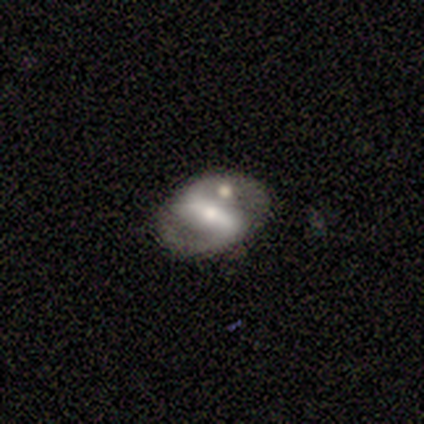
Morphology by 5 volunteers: smooth_or_featured: featured or disk (p=0.60) [alt: smooth p=0.40]
disk_edge_on: no (p=1.00)
bar: strong (p=0.33) [tied with: weak p=0.33, no p=0.33]
has_spiral_arms: yes (p=0.67) [alt: no p=0.33]
spiral_winding: tight (p=0.50) [tied with: loose p=0.50]
spiral_arm_count: 2 (p=1.00)
bulge_size: moderate (p=0.67) [alt: small p=0.33]
merging: none (p=0.80) [alt: major disturbance p=0.20]